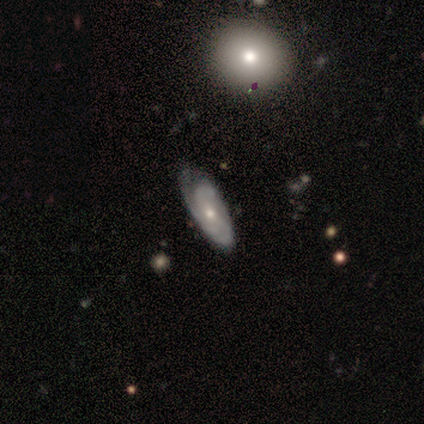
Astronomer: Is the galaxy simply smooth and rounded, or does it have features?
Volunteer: smooth — 50%, tied with featured or disk at 50%.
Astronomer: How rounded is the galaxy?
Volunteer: in between — 100%.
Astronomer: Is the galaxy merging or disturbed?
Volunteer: none — 50%, tied with minor disturbance at 50%.